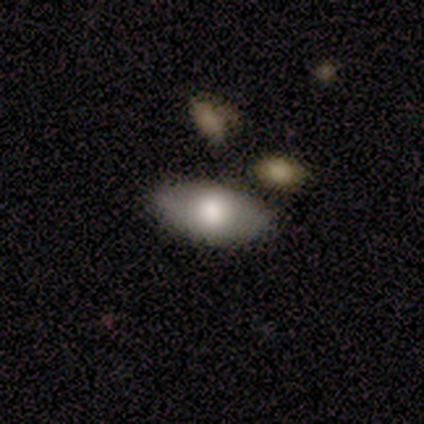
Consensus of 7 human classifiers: Smooth or featured? smooth (57%)
How rounded? in between (100%)
Merging? none (71%)